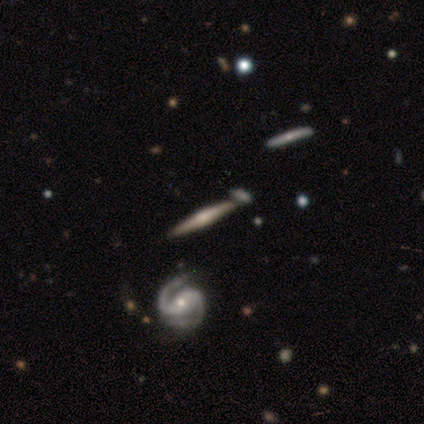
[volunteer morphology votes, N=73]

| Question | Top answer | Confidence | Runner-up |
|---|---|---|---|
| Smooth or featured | featured or disk | 82% | smooth (12%) |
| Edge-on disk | yes | 95% | no (5%) |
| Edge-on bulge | rounded | 77% | boxy (16%) |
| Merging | none | 77% | merger (12%) |